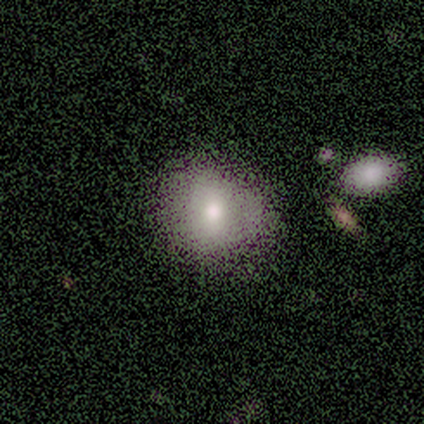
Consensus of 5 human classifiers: Volunteers were most divided on "merging" (2-way tie): none: 40%, major disturbance: 40%, minor disturbance: 20%, merger: 0%. More confident: how rounded — round (100%); smooth or featured — smooth (60%).